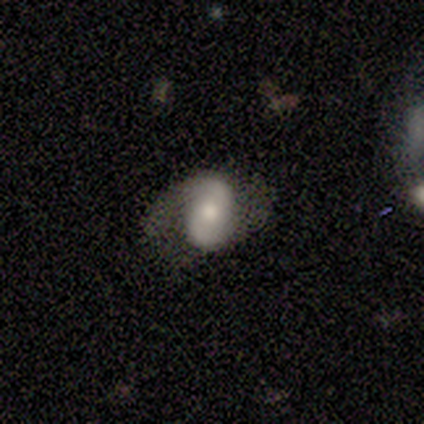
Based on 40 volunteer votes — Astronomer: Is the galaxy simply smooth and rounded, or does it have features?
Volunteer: featured or disk — 80%.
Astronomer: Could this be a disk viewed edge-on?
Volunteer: no — 97%.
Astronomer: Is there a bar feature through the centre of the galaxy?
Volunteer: no — 39% (runner-up: strong, 32%).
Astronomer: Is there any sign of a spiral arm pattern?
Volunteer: yes — 94%.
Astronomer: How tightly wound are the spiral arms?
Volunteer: medium — 48% (runner-up: loose, 41%).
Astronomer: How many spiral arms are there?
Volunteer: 2 — 97%.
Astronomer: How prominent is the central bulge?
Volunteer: moderate — 61%.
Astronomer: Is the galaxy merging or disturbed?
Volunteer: none — 59%.